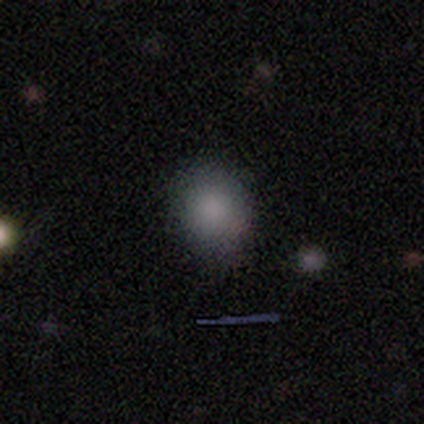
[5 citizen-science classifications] Morphology: type=smooth (80%); roundness=round (50%, tied with in between); merging=none (75%).